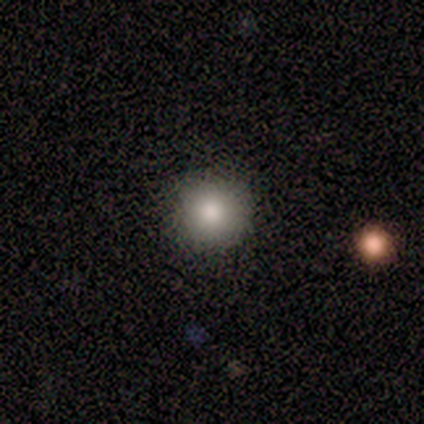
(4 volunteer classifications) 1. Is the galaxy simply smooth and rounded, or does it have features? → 100% smooth, 0% featured or disk, 0% star or artifact.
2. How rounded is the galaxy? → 100% round, 0% in between, 0% cigar-shaped.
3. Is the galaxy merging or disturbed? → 75% none, 25% major disturbance, 0% minor disturbance, 0% merger.